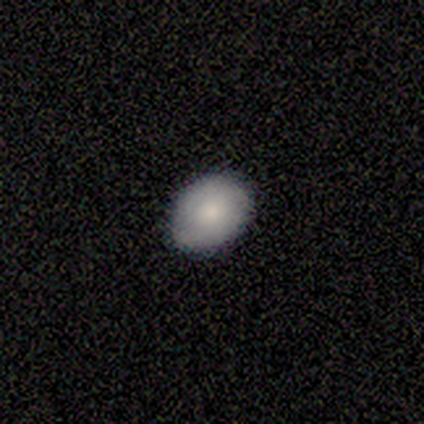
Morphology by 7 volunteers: Q: Smooth or featured?
A: smooth (86%); runner-up: featured or disk (14%)
Q: How rounded?
A: in between (83%); runner-up: round (17%)
Q: Merging?
A: none (86%); runner-up: minor disturbance (14%)